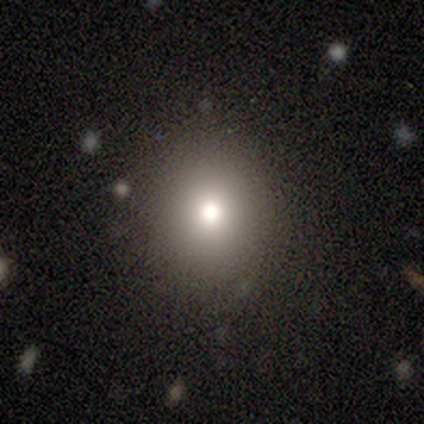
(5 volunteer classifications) Smooth or featured?
  - smooth: 80% *
  - featured or disk: 20%
  - star or artifact: 0%
How rounded?
  - round: 100% *
  - in between: 0%
  - cigar-shaped: 0%
Merging?
  - none: 100% *
  - minor disturbance: 0%
  - major disturbance: 0%
  - merger: 0%